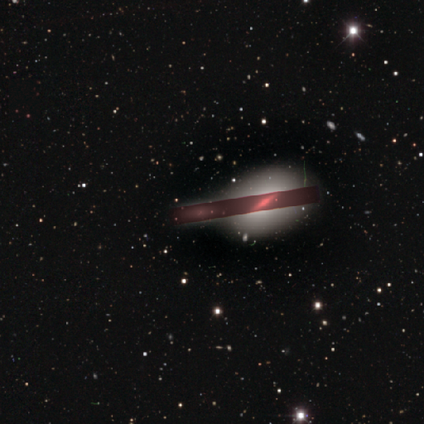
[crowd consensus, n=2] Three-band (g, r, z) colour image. It shows a star or artifact, not a galaxy (100%).